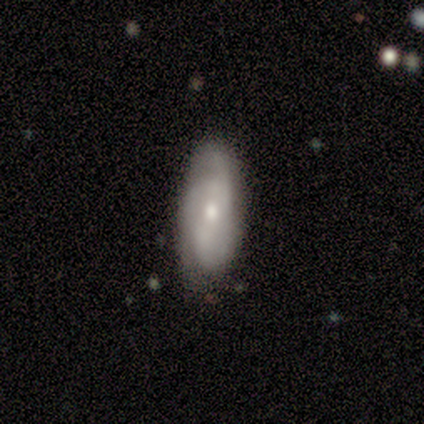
This is clearly a featured or disk galaxy (100%). It is clearly not viewed edge-on (100%). Bar: clearly no (80%). Spiral arm pattern: clearly yes (100%). Spiral arm count: likely 2 (60%). Spiral winding: clearly tight (80%). Central bulge: likely moderate (60%). Merging: clearly none (80%).